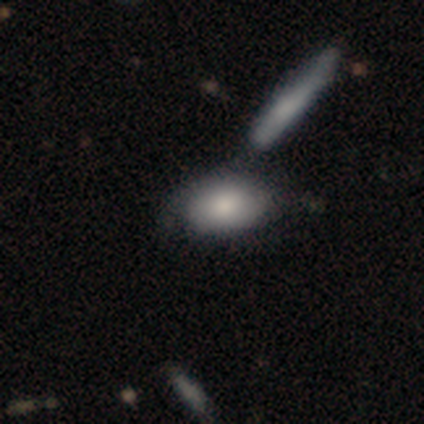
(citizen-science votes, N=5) smooth_or_featured: smooth (p=0.60) [alt: featured or disk p=0.40]
how_rounded: in between (p=0.67) [alt: round p=0.33]
merging: none (p=0.60) [alt: minor disturbance p=0.20]